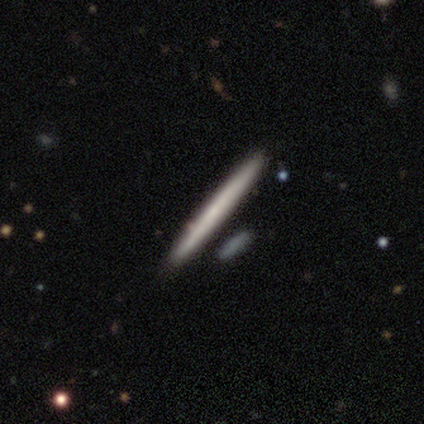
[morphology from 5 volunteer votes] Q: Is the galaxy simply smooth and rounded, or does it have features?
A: smooth — 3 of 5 (60%).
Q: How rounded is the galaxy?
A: cigar-shaped — 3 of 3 (100%).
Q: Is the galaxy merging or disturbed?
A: none — 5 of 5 (100%).